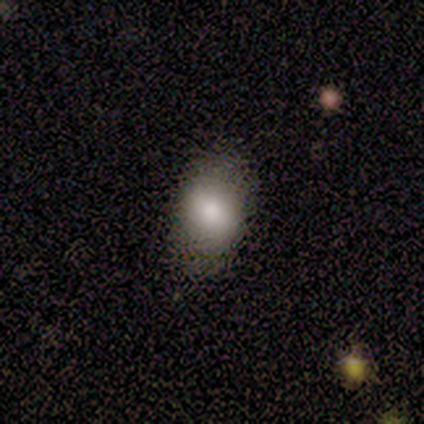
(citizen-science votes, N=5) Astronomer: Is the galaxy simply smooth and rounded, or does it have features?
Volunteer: smooth — 100%.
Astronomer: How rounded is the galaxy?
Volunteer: in between — 80%.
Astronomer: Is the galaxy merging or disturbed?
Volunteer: none — 100%.